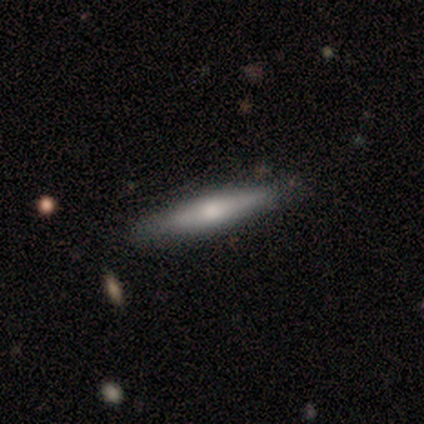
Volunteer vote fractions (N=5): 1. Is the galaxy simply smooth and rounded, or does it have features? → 80% smooth, 20% featured or disk, 0% star or artifact.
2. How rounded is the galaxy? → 100% cigar-shaped, 0% round, 0% in between.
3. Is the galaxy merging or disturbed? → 80% none, 20% minor disturbance, 0% major disturbance, 0% merger.